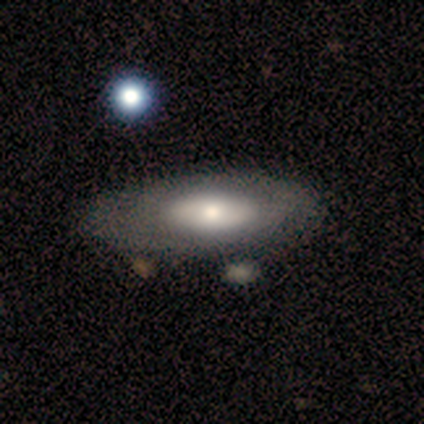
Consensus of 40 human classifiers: Overall: smooth (52%; featured or disk 45%). How rounded: in between (90%). Merging: none (54%).